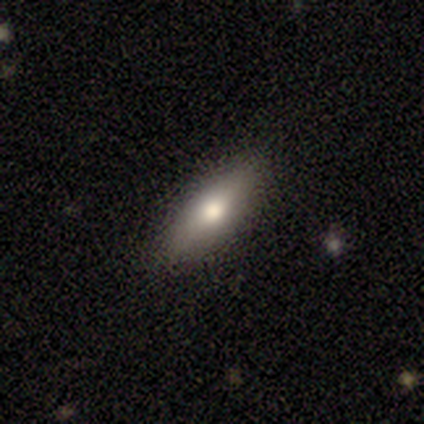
smooth-or-featured: smooth: 65% | featured or disk: 24% | star or artifact: 11%
  how-rounded: in between: 54% | cigar-shaped: 42% | round: 4%
  merging: none: 100% | minor disturbance: 0% | major disturbance: 0% | merger: 0%